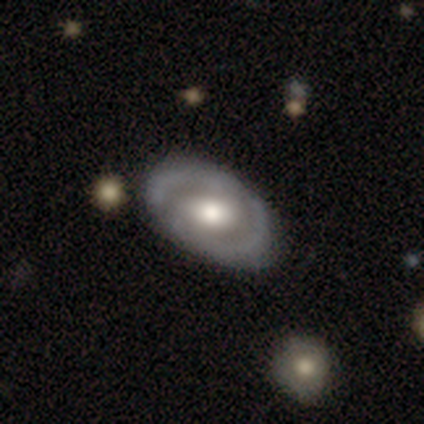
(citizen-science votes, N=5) smooth-or-featured: featured or disk: 80% | smooth: 20% | star or artifact: 0%
  disk-edge-on: no: 75% | yes: 25%
    bar: no: 100% | strong: 0% | weak: 0%
    has-spiral-arms: no: 67% | yes: 33%
    bulge-size: large: 67% | moderate: 33% | dominant: 0% | small: 0% | none: 0%
  merging: none: 80% | minor disturbance: 20% | major disturbance: 0% | merger: 0%